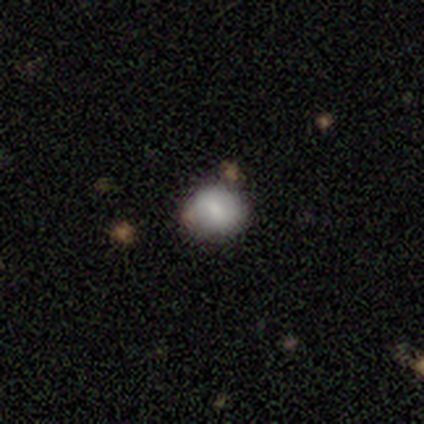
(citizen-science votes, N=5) Morphology: type=smooth (40%, tied with star or artifact); roundness=round (100%); merging=none (100%).